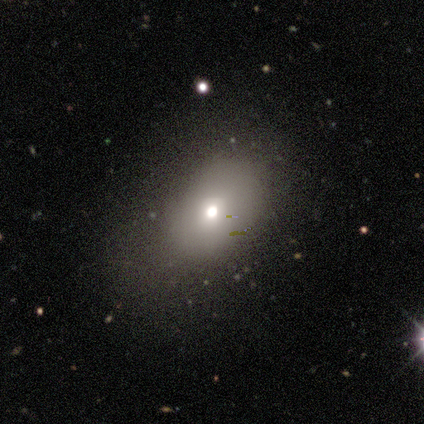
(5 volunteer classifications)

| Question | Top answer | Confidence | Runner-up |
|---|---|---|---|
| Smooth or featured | featured or disk | 60% | smooth (40%) |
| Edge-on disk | no | 100% | — |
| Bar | no | 100% | — |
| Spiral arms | no | 100% | — |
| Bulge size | small | 67% | moderate (33%) |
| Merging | none | 80% | minor disturbance (20%) |